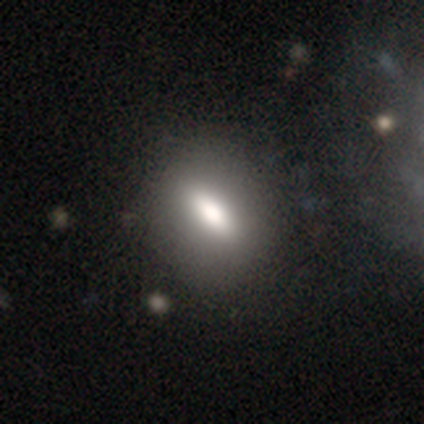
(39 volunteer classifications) smooth-or-featured: smooth: 82% | featured or disk: 13% | star or artifact: 5%
  how-rounded: in between: 66% | cigar-shaped: 19% | round: 16%
  merging: none: 51% | minor disturbance: 5% | major disturbance: 5% | merger: 3%